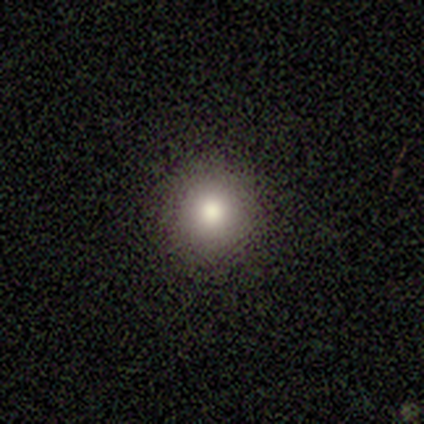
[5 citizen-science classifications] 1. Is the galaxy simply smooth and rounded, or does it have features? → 100% smooth, 0% featured or disk, 0% star or artifact.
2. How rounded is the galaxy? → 80% round, 20% in between, 0% cigar-shaped.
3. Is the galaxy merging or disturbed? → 60% none, 20% minor disturbance, 20% merger, 0% major disturbance.